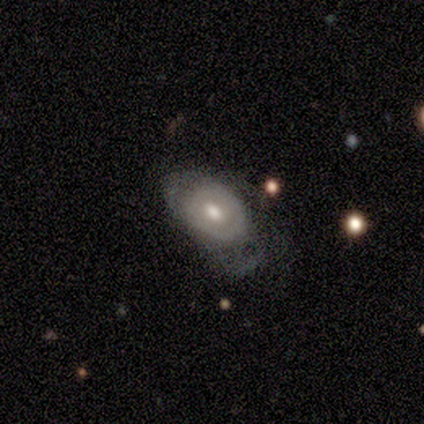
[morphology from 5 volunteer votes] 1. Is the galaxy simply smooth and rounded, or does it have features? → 60% featured or disk, 40% smooth, 0% star or artifact.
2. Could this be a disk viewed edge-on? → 100% no, 0% yes.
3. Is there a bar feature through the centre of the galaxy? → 100% no, 0% strong, 0% weak.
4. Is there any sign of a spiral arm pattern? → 100% no, 0% yes.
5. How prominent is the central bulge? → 67% moderate, 33% small, 0% dominant, 0% large, 0% none.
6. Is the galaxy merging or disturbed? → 80% minor disturbance, 20% none, 0% major disturbance, 0% merger.